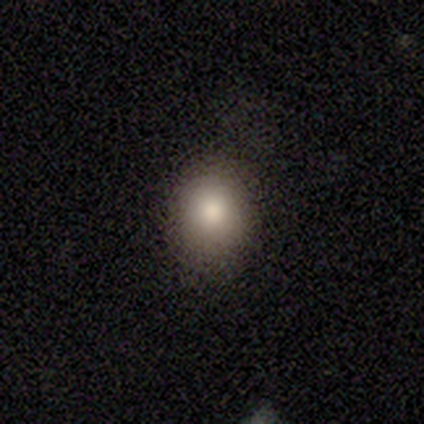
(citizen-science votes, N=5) This appears to be a star or artifact, not a galaxy (60%).